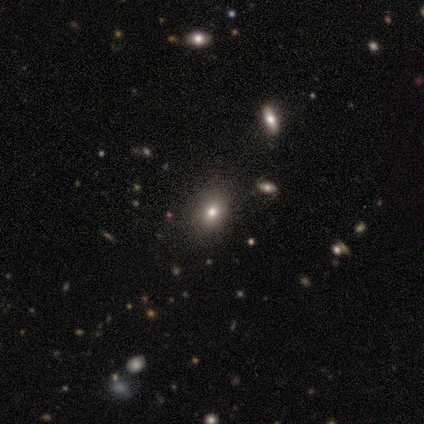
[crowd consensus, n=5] Smooth or featured? smooth (60%)
How rounded? in between (67%)
Merging? none (100%)